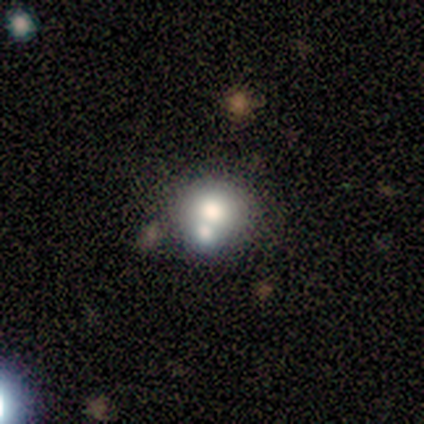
This appears to be a smooth galaxy with no disk features (100%) that is round (100%). Merging: none (60%).